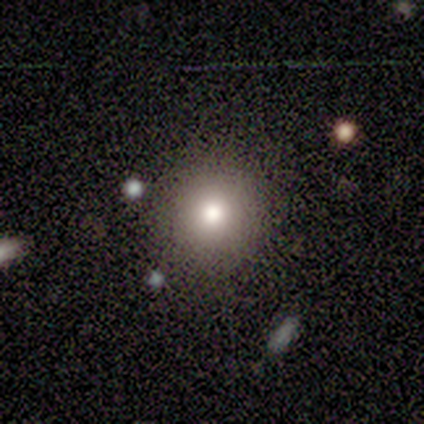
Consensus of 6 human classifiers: A smooth galaxy with no disk features (100%) that is round (83%). Merging: none (83%).